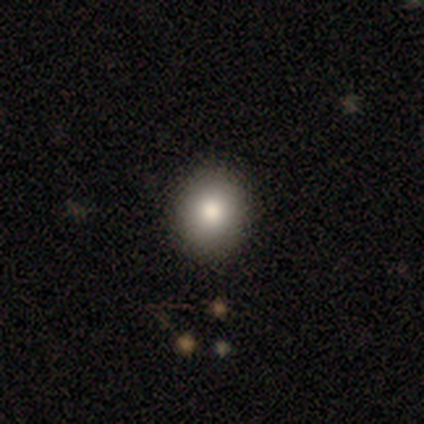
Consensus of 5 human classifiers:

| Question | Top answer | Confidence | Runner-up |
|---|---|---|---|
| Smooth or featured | smooth | 80% | star or artifact (20%) |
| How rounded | round | 100% | — |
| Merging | none | 75% | minor disturbance (25%) |